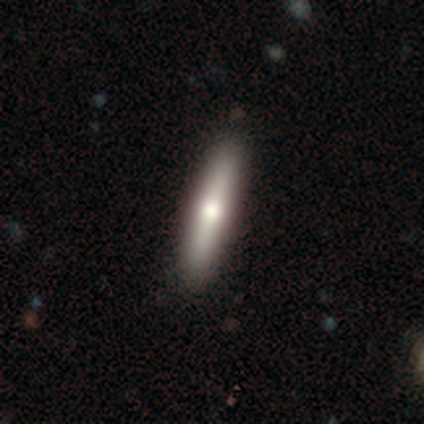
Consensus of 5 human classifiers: A featured or disk galaxy (60%) viewed edge-on (100%) with a rounded central bulge (67%). Merging: none (100%).